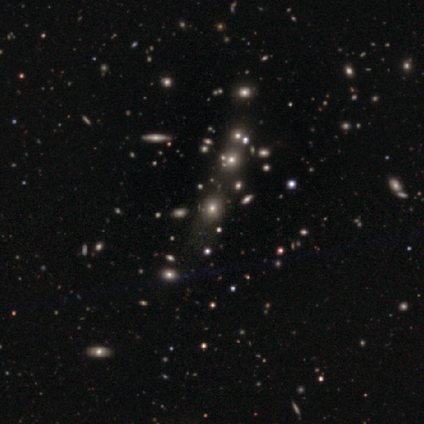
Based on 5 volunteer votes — Volunteers were most divided on "merging": minor disturbance: 50%, none: 25%, merger: 25%, major disturbance: 0%. More confident: how rounded — round (67%); smooth or featured — smooth (60%).